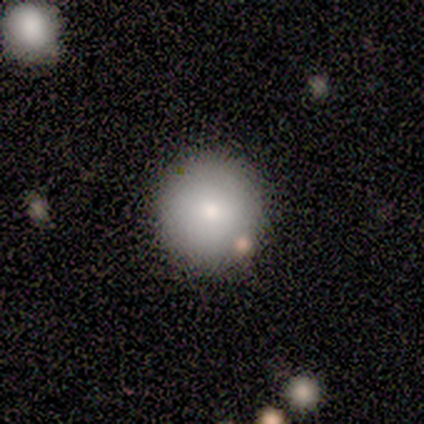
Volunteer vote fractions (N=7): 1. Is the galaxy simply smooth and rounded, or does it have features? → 86% smooth, 14% star or artifact, 0% featured or disk.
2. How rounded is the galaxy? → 100% round, 0% in between, 0% cigar-shaped.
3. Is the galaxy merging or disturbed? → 67% none, 33% minor disturbance, 0% major disturbance, 0% merger.